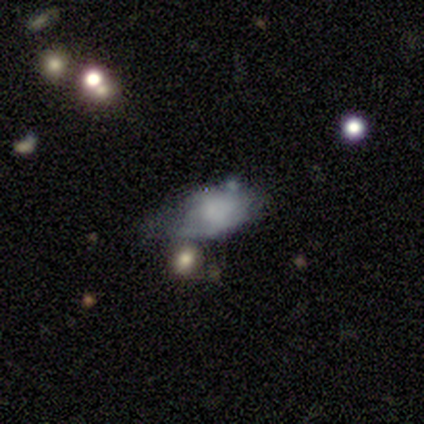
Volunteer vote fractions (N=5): smooth 60%, featured or disk 20%, star or artifact 20%. Down the decision tree: how rounded — in between (100%); merging — minor disturbance (50%).